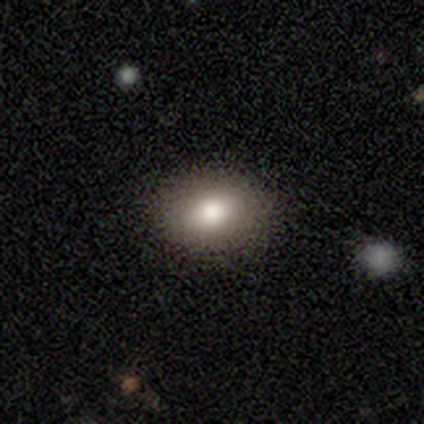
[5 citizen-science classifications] Smooth or featured? smooth (80%)
How rounded? in between (75%)
Merging? none (80%)